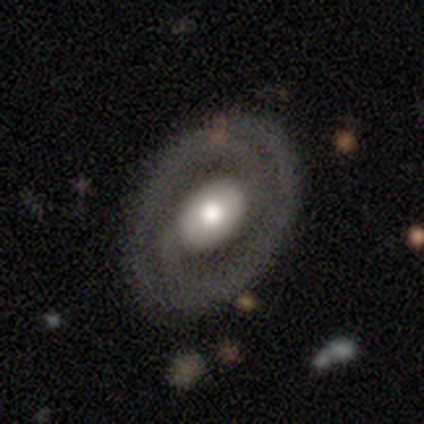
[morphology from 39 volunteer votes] Q: Smooth or featured?
A: featured or disk (85%); runner-up: smooth (10%)
Q: Edge-on disk?
A: no (97%); runner-up: yes (3%)
Q: Bar?
A: no (53%); runner-up: weak (28%)
Q: Spiral arms?
A: yes (94%); runner-up: no (6%)
Q: Spiral winding?
A: tight (50%); runner-up: medium (30%)
Q: Spiral arm count?
A: 2 (93%); runner-up: 1 (3%)
Q: Bulge size?
A: moderate (50%); runner-up: large (44%)
Q: Merging?
A: none (84%); runner-up: minor disturbance (8%)